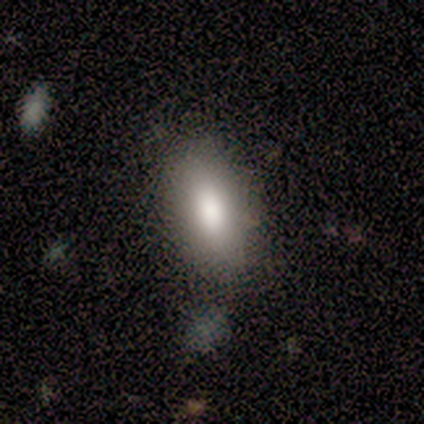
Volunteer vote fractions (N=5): smooth 80%, featured or disk 20%, star or artifact 0%. Down the decision tree: how rounded — in between (75%); merging — none (80%).